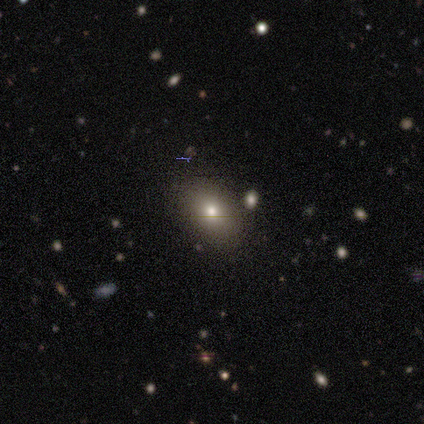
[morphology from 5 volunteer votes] smooth 80%, star or artifact 20%, featured or disk 0%. Down the decision tree: how rounded — in between (75%); merging — none (100%).